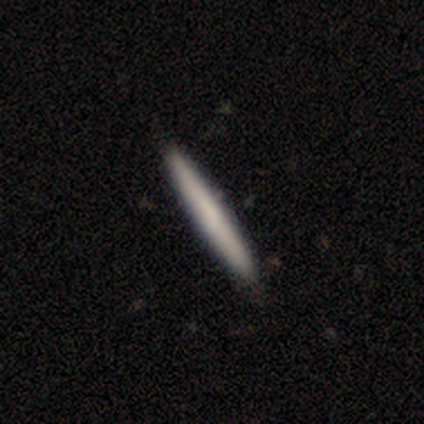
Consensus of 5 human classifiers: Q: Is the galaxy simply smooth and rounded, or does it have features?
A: smooth — 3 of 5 (60%).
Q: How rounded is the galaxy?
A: cigar-shaped — 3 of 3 (100%).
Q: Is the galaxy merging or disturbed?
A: none — 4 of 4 (100%).